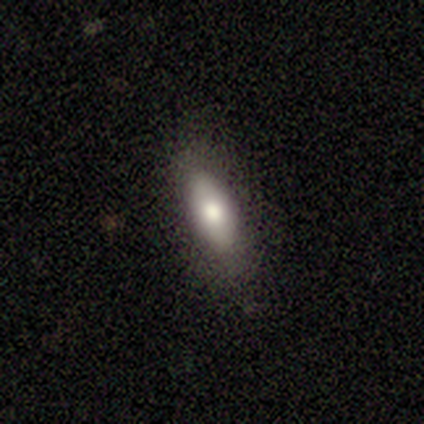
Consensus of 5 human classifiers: This appears to be a smooth galaxy with no disk features (80%) that is in between round and cigar-shaped (75%). Merging: none (75%).